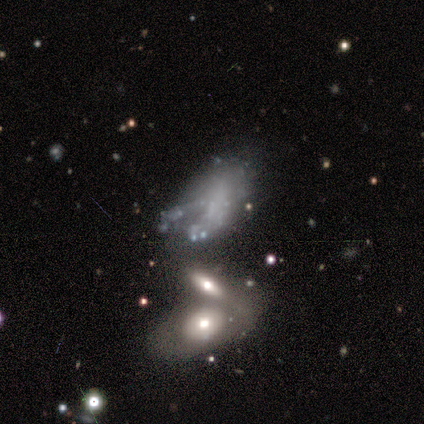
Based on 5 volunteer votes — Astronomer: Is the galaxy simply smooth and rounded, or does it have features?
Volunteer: smooth — 40%, tied with featured or disk at 40%.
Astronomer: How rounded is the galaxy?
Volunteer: in between — 100%.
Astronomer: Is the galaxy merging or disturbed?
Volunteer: major disturbance — 75%.